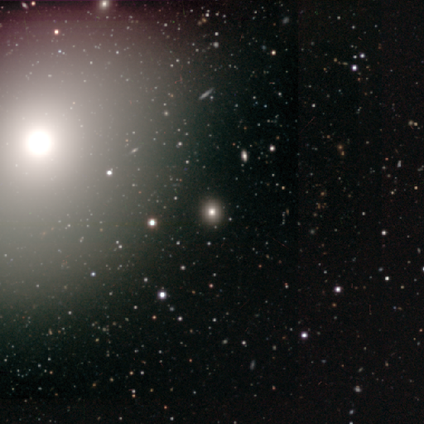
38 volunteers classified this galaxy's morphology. A star or artifact, not a galaxy (55%).

Vote fractions:
- Smooth or featured? star or artifact: 55% / smooth: 34% / featured or disk: 11%